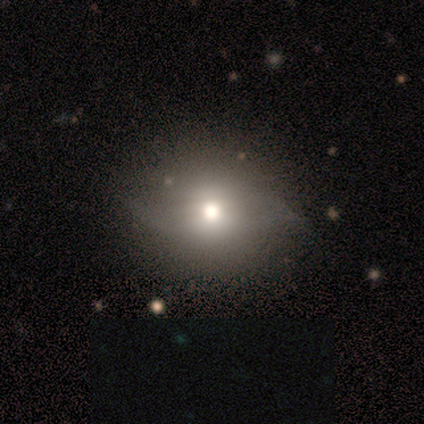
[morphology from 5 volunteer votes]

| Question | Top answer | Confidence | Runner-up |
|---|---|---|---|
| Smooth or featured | smooth | 40% | tied: star or artifact (40%) |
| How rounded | round | 100% | — |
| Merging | none | 67% | minor disturbance (33%) |